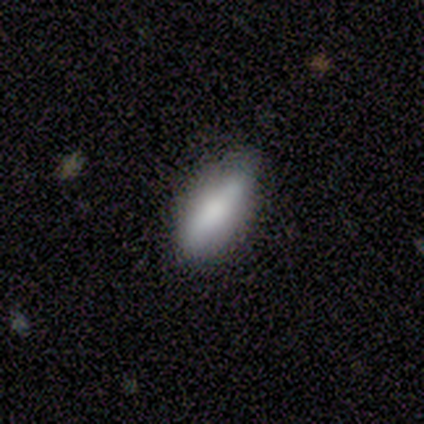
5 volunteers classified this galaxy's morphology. A smooth galaxy with no disk features (100%) that is in between round and cigar-shaped (80%). Merging: none (100%).